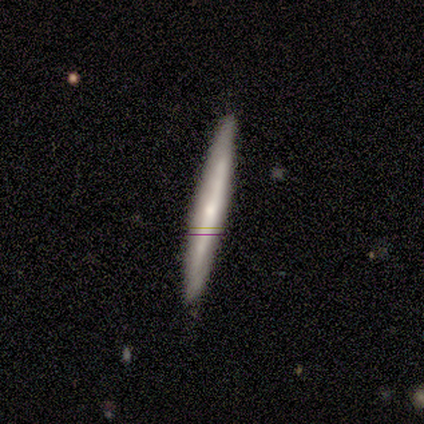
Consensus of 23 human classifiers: smooth-or-featured: featured or disk: 57% | smooth: 39% | star or artifact: 4%
  disk-edge-on: yes: 85% | no: 15%
    edge-on-bulge: rounded: 45% | none: 36% | boxy: 18%
  merging: none: 91% | minor disturbance: 9% | major disturbance: 0% | merger: 0%